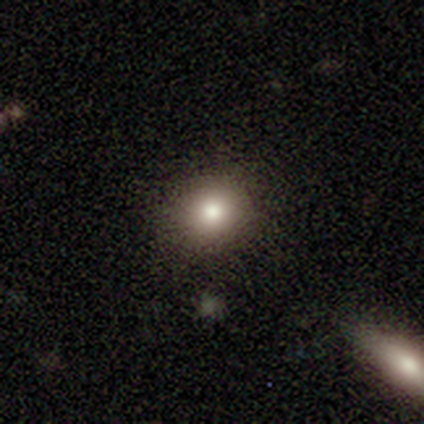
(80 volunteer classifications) smooth_or_featured: smooth (p=0.81) [alt: star or artifact p=0.11]
how_rounded: round (p=0.78) [alt: in between p=0.22]
merging: none (p=0.44) [alt: minor disturbance p=0.06]